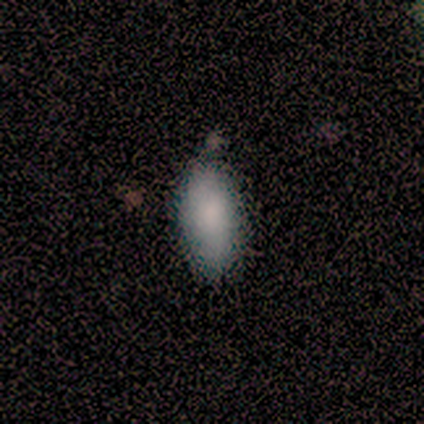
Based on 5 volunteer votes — smooth-or-featured: smooth: 60% | featured or disk: 40% | star or artifact: 0%
  how-rounded: in between: 100% | round: 0% | cigar-shaped: 0%
  merging: none: 60% | minor disturbance: 40% | major disturbance: 0% | merger: 0%